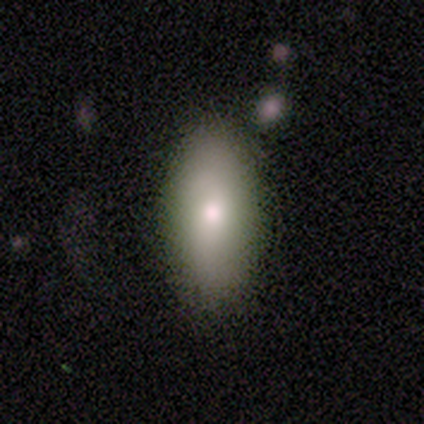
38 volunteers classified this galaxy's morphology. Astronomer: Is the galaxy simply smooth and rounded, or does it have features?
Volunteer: smooth — 84%.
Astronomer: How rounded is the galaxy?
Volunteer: in between — 91%.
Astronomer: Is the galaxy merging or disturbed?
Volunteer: none — 83%.